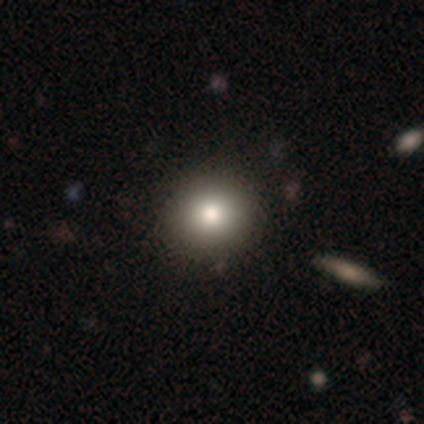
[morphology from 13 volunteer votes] Smooth or featured? smooth (85%)
How rounded? round (100%)
Merging? none (100%)